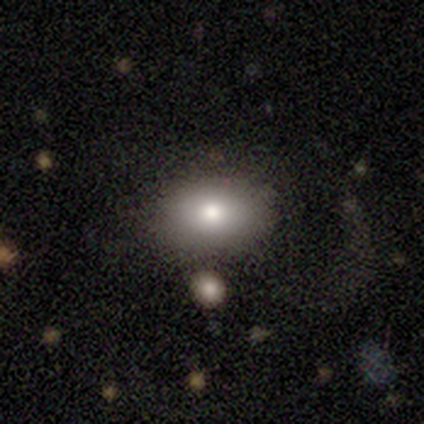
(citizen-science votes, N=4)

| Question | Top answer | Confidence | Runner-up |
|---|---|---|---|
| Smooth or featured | smooth | 75% | star or artifact (25%) |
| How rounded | in between | 100% | — |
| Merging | none | 100% | — |